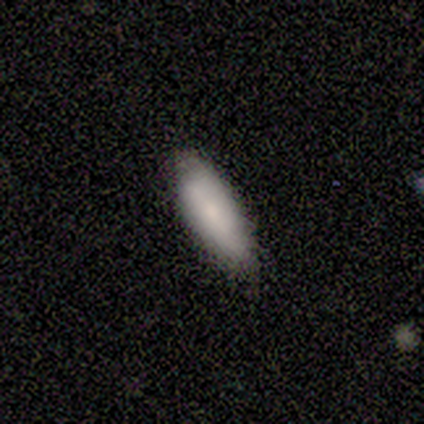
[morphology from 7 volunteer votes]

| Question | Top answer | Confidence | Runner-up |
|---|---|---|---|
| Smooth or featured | smooth | 57% | featured or disk (29%) |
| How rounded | in between | 75% | cigar-shaped (25%) |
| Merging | none | 67% | minor disturbance (33%) |